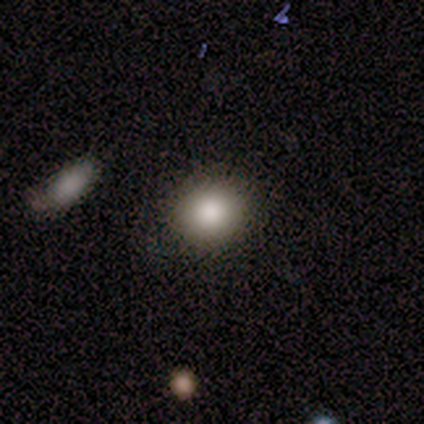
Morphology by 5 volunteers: A smooth galaxy with no disk features (80%) that is round (100%).

Vote fractions:
- Smooth or featured? smooth: 80% / star or artifact: 20% / featured or disk: 0%
- How rounded? round: 100% / in between: 0% / cigar-shaped: 0%
- Merging? none: 100% / minor disturbance: 0% / major disturbance: 0% / merger: 0%